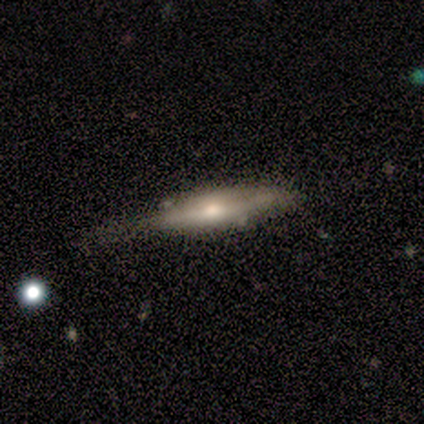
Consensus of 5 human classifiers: A featured or disk galaxy (80%) viewed edge-on (75%) with a rounded central bulge (100%).

Vote fractions:
- Smooth or featured? featured or disk: 80% / smooth: 20% / star or artifact: 0%
- Edge-on disk? yes: 75% / no: 25%
- Edge-on bulge? rounded: 100% / boxy: 0% / none: 0%
- Merging? none: 40% / minor disturbance: 20% / major disturbance: 20% / merger: 20%